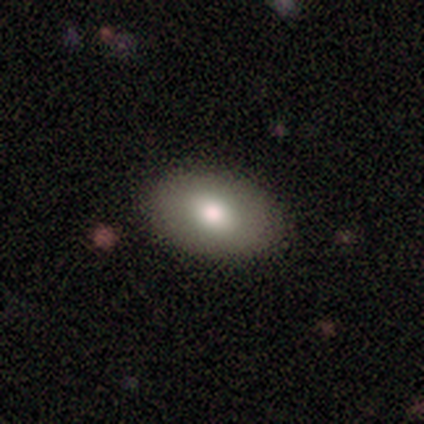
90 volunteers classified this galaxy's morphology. A smooth galaxy with no disk features (77%) that is in between round and cigar-shaped (91%). Merging: none (94%).